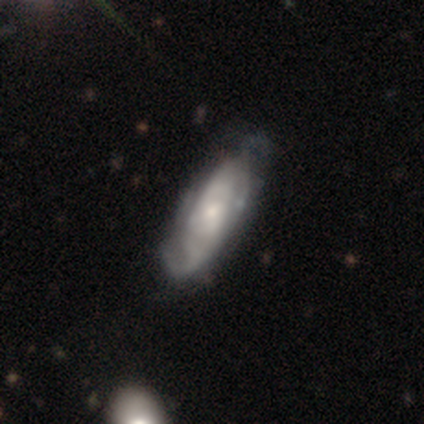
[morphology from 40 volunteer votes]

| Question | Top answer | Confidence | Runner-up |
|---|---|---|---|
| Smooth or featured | featured or disk | 80% | smooth (18%) |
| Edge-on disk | no | 94% | yes (6%) |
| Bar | no | 70% | weak (27%) |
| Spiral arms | yes | 87% | no (13%) |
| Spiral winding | medium | 35% | tied: loose (35%) |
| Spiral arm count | can't tell | 50% | 2 (38%) |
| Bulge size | small | 50% | moderate (30%) |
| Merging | none | 49% | minor disturbance (31%) |